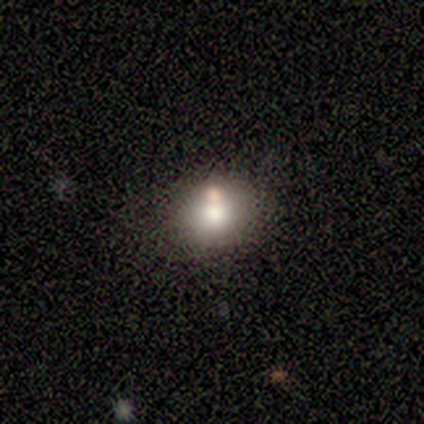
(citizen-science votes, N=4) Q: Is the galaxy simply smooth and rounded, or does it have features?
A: smooth — 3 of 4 (75%).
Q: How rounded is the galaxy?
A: in between — 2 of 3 (67%).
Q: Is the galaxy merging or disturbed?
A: none — 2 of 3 (67%).